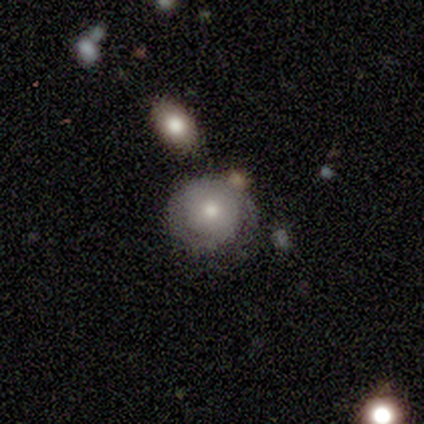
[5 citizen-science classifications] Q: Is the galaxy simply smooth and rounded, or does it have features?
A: smooth — 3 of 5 (60%).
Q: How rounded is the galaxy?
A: round — 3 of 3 (100%).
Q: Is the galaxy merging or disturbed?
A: none — 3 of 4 (75%).